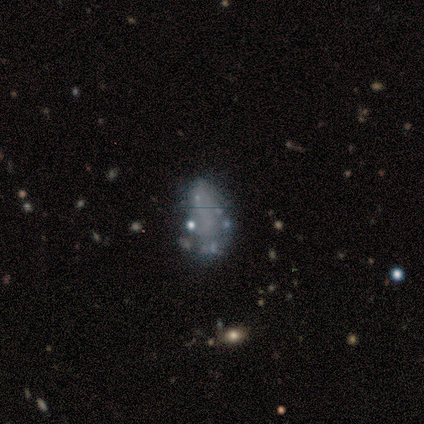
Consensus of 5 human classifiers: This is marginally a featured or disk galaxy (40%, tied with star or artifact). It is clearly not viewed edge-on (100%). Bar: clearly no (100%). Spiral arm pattern: clearly no (100%). Central bulge: clearly none (100%). Merging: likely none (67%).